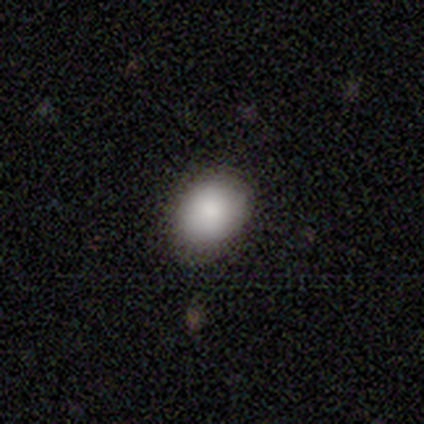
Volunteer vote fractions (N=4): A smooth galaxy with no disk features (100%) that is in between round and cigar-shaped (75%).

Vote fractions:
- Smooth or featured? smooth: 100% / featured or disk: 0% / star or artifact: 0%
- How rounded? in between: 75% / round: 25% / cigar-shaped: 0%
- Merging? none: 75% / minor disturbance: 25% / major disturbance: 0% / merger: 0%